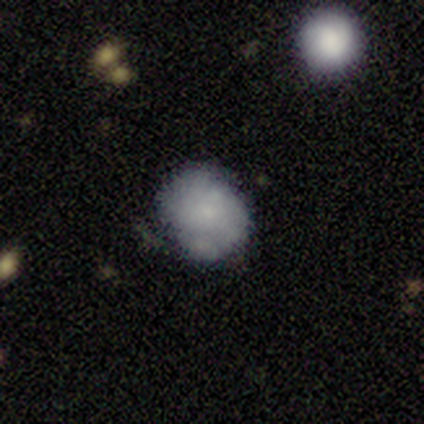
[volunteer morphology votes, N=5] Smooth or featured? 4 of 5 (80%) said smooth. How rounded? 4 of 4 (100%) said round. Merging? 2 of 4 (50%) said none.